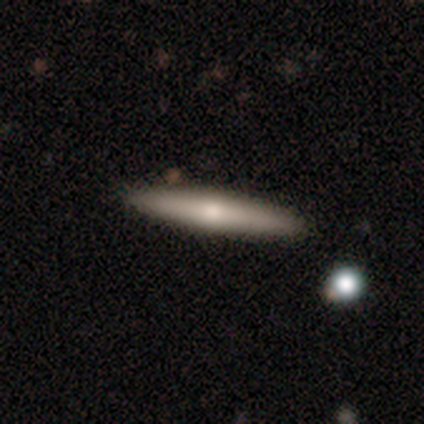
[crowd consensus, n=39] Smooth or featured? 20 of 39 (51%) said featured or disk. Edge-on disk? 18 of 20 (90%) said yes. Edge-on bulge? 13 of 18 (72%) said rounded. Merging? 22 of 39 (56%) said none.